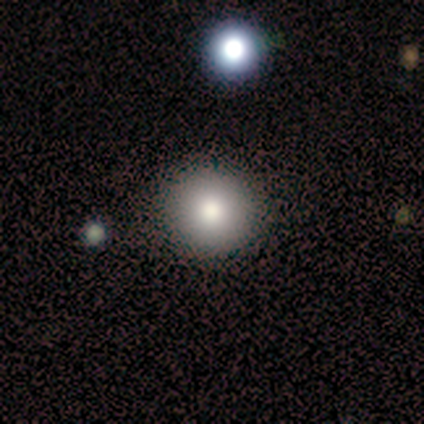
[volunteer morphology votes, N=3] Smooth or featured? smooth (100%)
How rounded? round (100%)
Merging? none (67%)